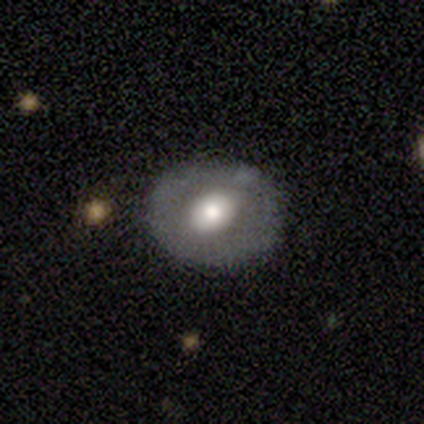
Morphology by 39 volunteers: Volunteers were most divided on "bulge size": moderate: 56%, large: 36%, small: 8%, dominant: 0%, none: 0%. More confident: edge-on disk — no (100%); spiral arms — no (88%); merging — none (70%); smooth or featured — featured or disk (64%); bar — no (60%).